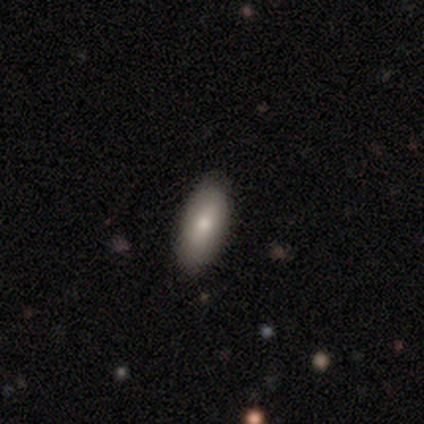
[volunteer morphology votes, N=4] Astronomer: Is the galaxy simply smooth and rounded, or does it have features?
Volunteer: smooth — 100%.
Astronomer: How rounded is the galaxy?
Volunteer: in between — 100%.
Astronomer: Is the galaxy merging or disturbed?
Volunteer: none — 100%.